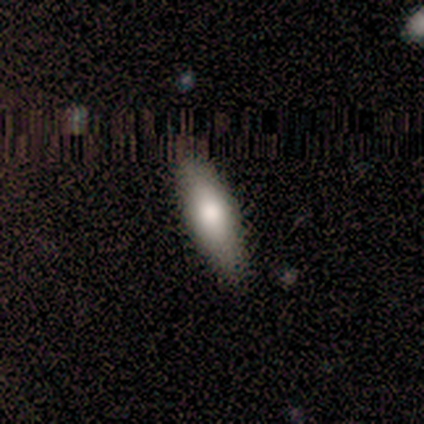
Smooth or featured: smooth — 100%
How rounded: cigar-shaped — 75% (in between — 25%)
Merging: none — 75% (minor disturbance — 25%)